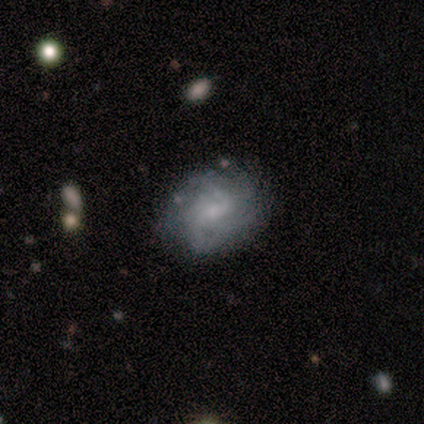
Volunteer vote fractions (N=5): smooth_or_featured: featured or disk (p=1.00)
disk_edge_on: no (p=1.00)
bar: no (p=0.60) [alt: strong p=0.20]
has_spiral_arms: yes (p=1.00)
spiral_winding: tight (p=0.40) [tied with: medium p=0.40]
spiral_arm_count: can't tell (p=0.40) [alt: 1 p=0.20]
bulge_size: small (p=1.00)
merging: none (p=0.60) [alt: minor disturbance p=0.40]